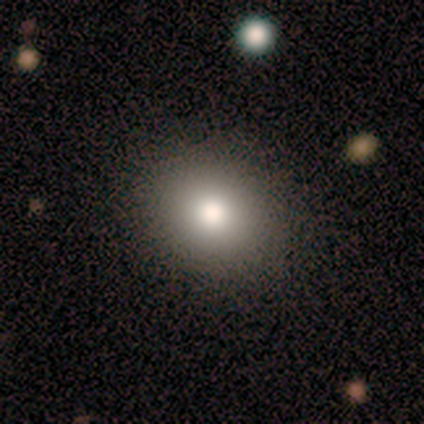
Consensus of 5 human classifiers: smooth_or_featured: smooth (p=1.00)
how_rounded: in between (p=0.60) [alt: round p=0.40]
merging: none (p=1.00)